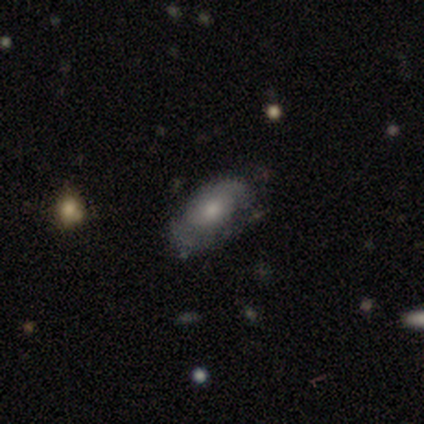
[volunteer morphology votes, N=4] smooth-or-featured: smooth: 50% (tied) | featured or disk: 50% (tied) | star or artifact: 0%
  how-rounded: in between: 100% | round: 0% | cigar-shaped: 0%
  merging: none: 75% | minor disturbance: 25% | major disturbance: 0% | merger: 0%